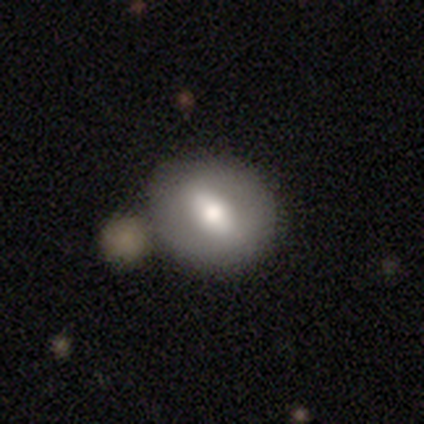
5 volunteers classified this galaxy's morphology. smooth-or-featured: featured or disk: 60% | smooth: 20% | star or artifact: 20%
  disk-edge-on: no: 67% | yes: 33%
    bar: weak: 50% (tied) | no: 50% (tied) | strong: 0%
    has-spiral-arms: no: 100% | yes: 0%
    bulge-size: large: 50% (tied) | small: 50% (tied) | dominant: 0% | moderate: 0% | none: 0%
  merging: none: 75% | merger: 25% | minor disturbance: 0% | major disturbance: 0%